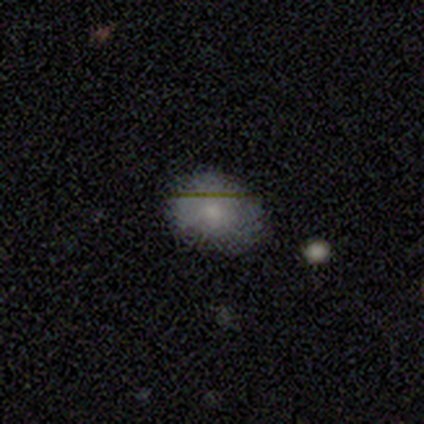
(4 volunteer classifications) smooth 50% (tied), featured or disk 50% (tied), star or artifact 0%. Down the decision tree: how rounded — in between (100%); merging — none (100%).